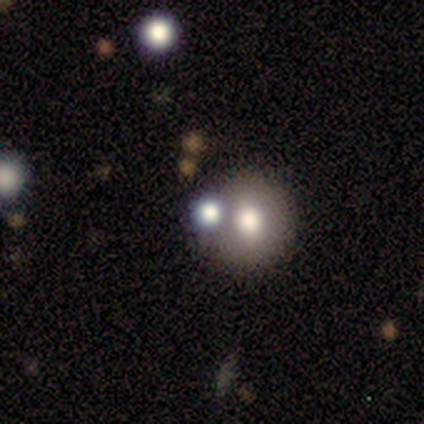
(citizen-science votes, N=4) This is likely a smooth galaxy (75%). How rounded: clearly round (100%). Merging: clearly none (100%).